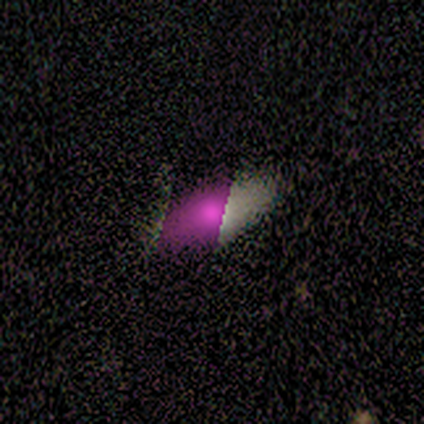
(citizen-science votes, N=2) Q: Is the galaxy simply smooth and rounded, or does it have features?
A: smooth — 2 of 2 (100%).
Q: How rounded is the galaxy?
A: in between — 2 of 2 (100%).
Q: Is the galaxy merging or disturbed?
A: none — 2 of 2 (100%).